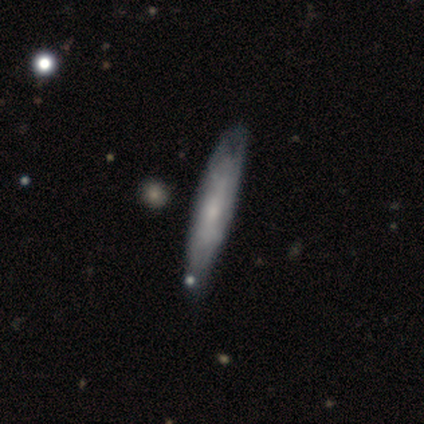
A featured or disk galaxy (59%) viewed edge-on (61%) with a rounded central bulge (57%). Merging: none (67%).